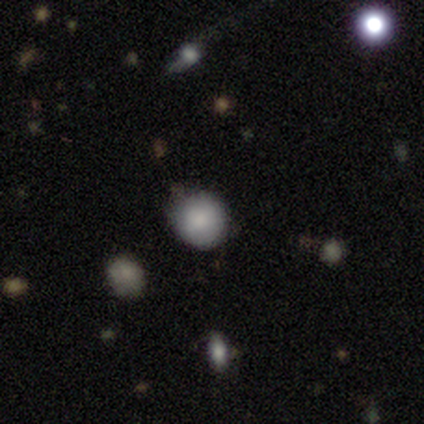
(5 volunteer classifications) Smooth or featured?
  - smooth: 60% *
  - star or artifact: 40%
  - featured or disk: 0%
How rounded?
  - round: 100% *
  - in between: 0%
  - cigar-shaped: 0%
Merging?
  - none: 67% *
  - minor disturbance: 33%
  - major disturbance: 0%
  - merger: 0%